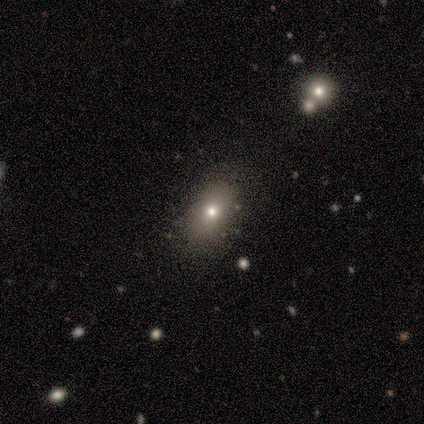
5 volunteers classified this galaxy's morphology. smooth-or-featured: star or artifact: 60% | smooth: 40% | featured or disk: 0%